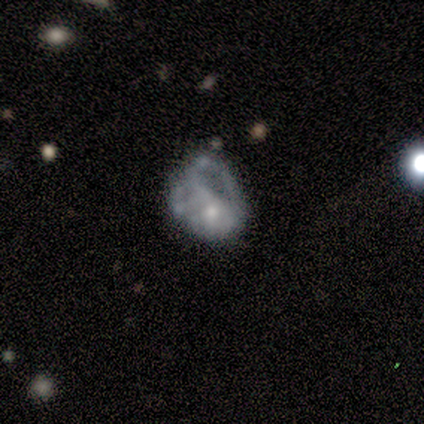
This appears to be a featured or disk galaxy (83%) with no bar (80%), no spiral arms (100%) and a small central bulge (60%). Merging: none (50%, tied with major disturbance).